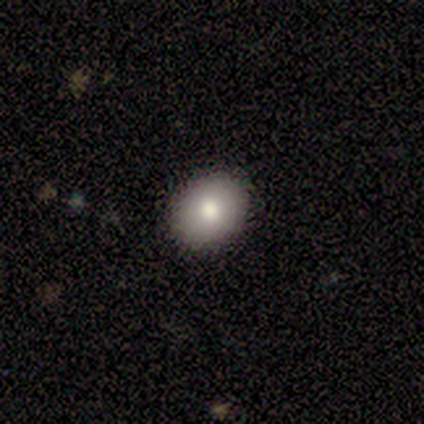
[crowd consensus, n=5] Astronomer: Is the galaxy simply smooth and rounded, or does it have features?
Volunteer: smooth — 60%.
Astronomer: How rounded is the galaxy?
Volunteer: in between — 67%.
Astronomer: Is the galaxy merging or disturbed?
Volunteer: none — 50%, tied with minor disturbance at 50%.